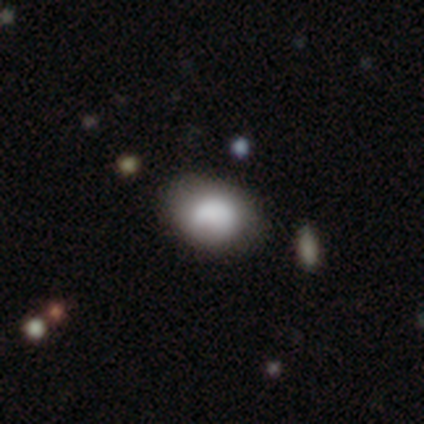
Overall: smooth (74%). How rounded: in between (72%). Merging: none (75%).